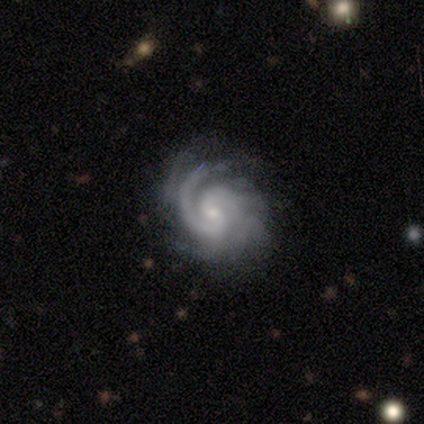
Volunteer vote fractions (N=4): A featured or disk galaxy (100%) with no bar (100%), 2 (25%, tied with 3, 4 and more than 4) tight (100%) spiral arms (100%) and a small central bulge (75%). Merging: none (100%).